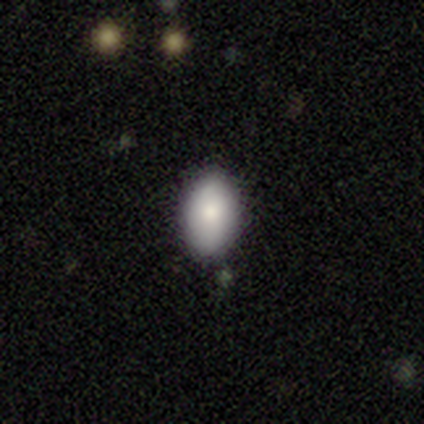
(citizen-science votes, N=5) smooth-or-featured: smooth: 100% | featured or disk: 0% | star or artifact: 0%
  how-rounded: in between: 100% | round: 0% | cigar-shaped: 0%
  merging: none: 80% | minor disturbance: 20% | major disturbance: 0% | merger: 0%